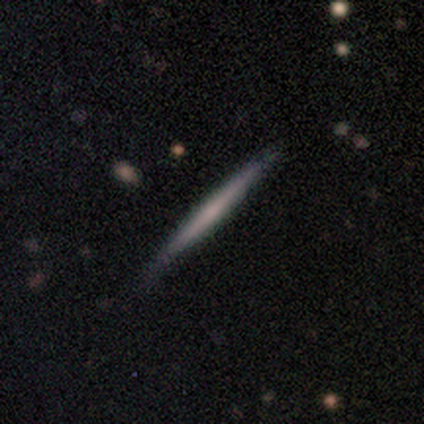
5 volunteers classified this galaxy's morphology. featured or disk 60%, smooth 40%, star or artifact 0%. Down the decision tree: edge-on disk — yes (100%); edge-on bulge — none (100%); merging — none (80%).